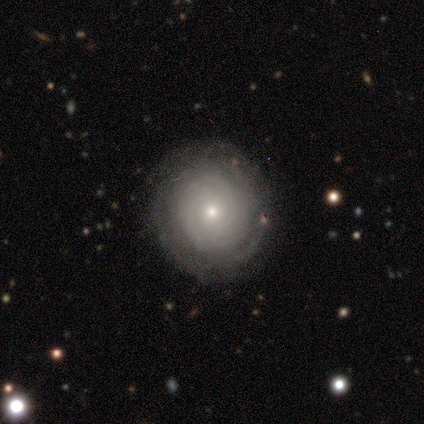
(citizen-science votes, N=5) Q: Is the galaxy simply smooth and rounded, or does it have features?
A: featured or disk — 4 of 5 (80%).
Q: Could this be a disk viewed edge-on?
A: no — 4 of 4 (100%).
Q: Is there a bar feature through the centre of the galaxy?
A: no — 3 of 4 (75%).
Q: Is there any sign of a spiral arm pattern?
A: yes — 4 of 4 (100%).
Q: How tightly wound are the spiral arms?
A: tight — 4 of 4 (100%).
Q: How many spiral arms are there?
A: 4 — 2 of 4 (50%, tied with can't tell).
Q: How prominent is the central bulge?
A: moderate — 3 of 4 (75%).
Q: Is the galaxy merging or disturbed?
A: none — 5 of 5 (100%).